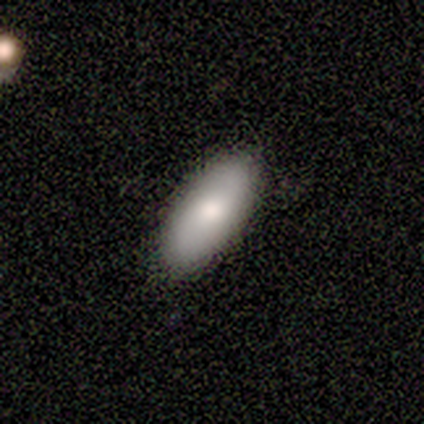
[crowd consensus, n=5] smooth 60%, featured or disk 40%, star or artifact 0%. Down the decision tree: how rounded — in between (100%); merging — none (100%).